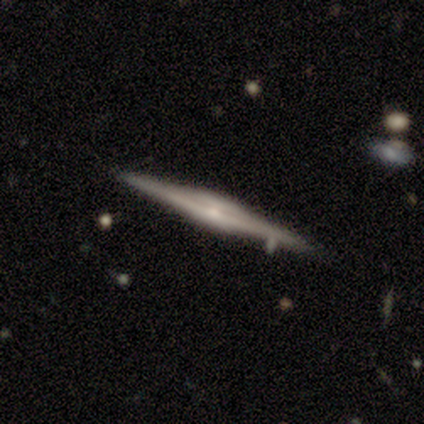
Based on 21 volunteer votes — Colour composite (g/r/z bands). It shows a featured or disk galaxy (81%) viewed edge-on (100%) with a boxy central bulge (47%, tied with rounded). Merging: none (85%).